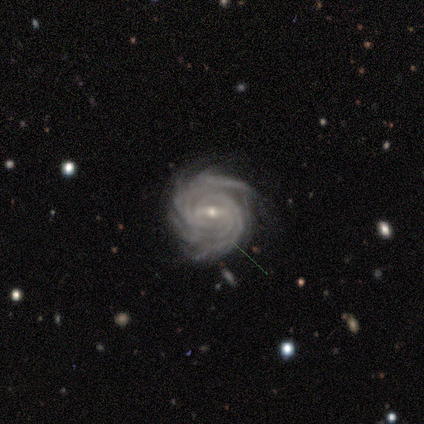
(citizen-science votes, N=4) A featured or disk galaxy (100%) with a weak bar (75%), 4 (33%, tied with more than 4 and can't tell) tight (100%) spiral arms (75%) and a moderate central bulge (50%, tied with small). Merging: none (100%).